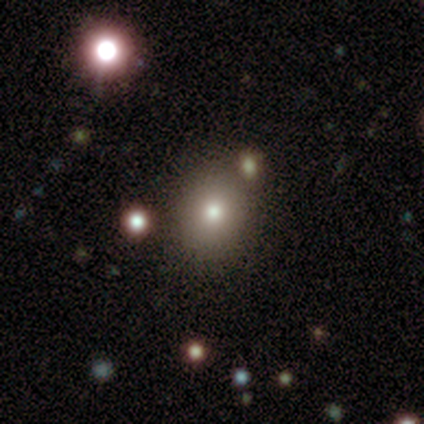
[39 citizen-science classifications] Smooth or featured: smooth — 64% (star or artifact — 28%)
How rounded: round — 64% (in between — 36%)
Merging: none — 89% (major disturbance — 7%)